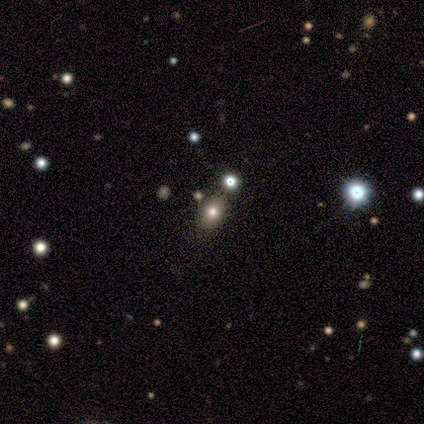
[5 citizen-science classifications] A smooth galaxy with no disk features (100%) that is in between round and cigar-shaped (80%). Merging: none (80%).